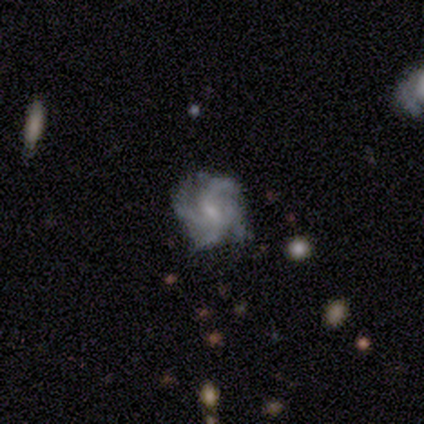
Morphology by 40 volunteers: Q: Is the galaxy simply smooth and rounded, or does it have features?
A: featured or disk — 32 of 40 (80%).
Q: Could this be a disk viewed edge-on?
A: no — 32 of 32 (100%).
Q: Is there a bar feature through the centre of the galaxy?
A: weak — 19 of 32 (59%).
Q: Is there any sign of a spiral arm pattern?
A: yes — 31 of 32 (97%).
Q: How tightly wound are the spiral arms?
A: medium — 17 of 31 (55%).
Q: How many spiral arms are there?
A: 4 — 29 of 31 (94%).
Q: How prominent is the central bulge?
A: small — 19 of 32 (59%).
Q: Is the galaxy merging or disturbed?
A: none — 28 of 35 (80%).